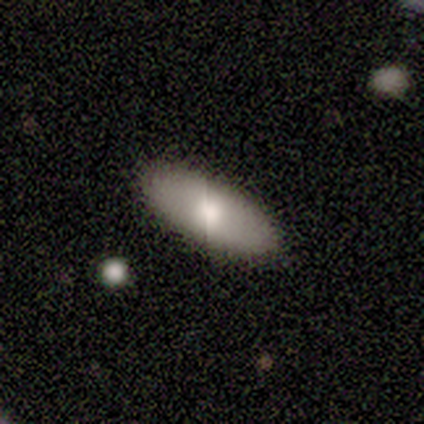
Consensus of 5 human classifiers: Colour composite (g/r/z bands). It shows a smooth galaxy with no disk features (80%) that is in between round and cigar-shaped (100%). Merging: none (100%).